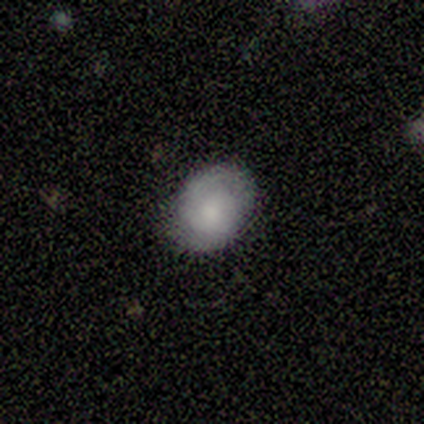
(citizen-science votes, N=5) Q: Smooth or featured?
A: smooth (100%)
Q: How rounded?
A: in between (60%); runner-up: round (40%)
Q: Merging?
A: none (80%); runner-up: minor disturbance (20%)